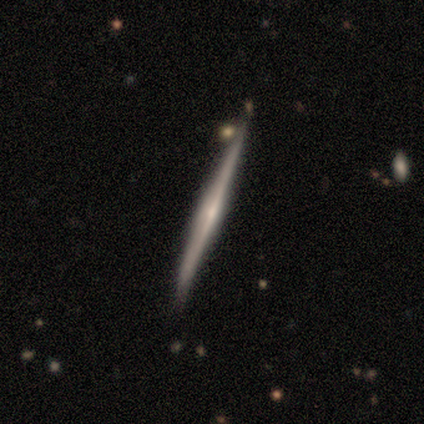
A featured or disk galaxy (79%) viewed edge-on (100%) with a rounded central bulge (57%).

Vote fractions:
- Smooth or featured? featured or disk: 79% / smooth: 16% / star or artifact: 5%
- Edge-on disk? yes: 100% / no: 0%
- Edge-on bulge? rounded: 57% / none: 37% / boxy: 7%
- Merging? none: 78% / minor disturbance: 14% / merger: 8% / major disturbance: 0%